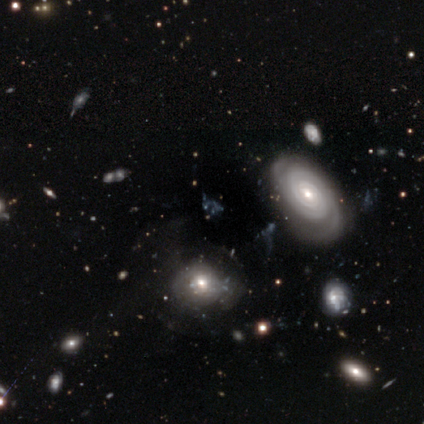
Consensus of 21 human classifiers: This appears to be a featured or disk galaxy (67%) with no bar (69%), 2 (38%, tied with 3) tight (62%) spiral arms (62%) and a moderate central bulge (38%). Merging: none (50%).